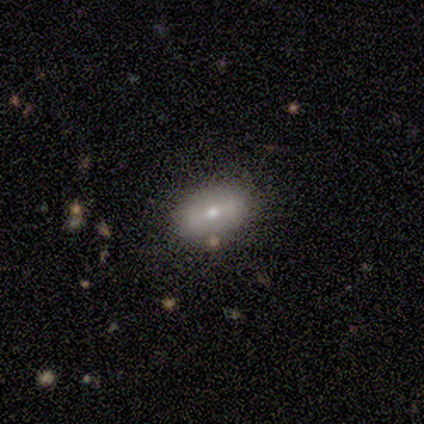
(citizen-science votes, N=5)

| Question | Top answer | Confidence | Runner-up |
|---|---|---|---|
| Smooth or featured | smooth | 80% | featured or disk (20%) |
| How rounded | in between | 100% | — |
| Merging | minor disturbance | 60% | none (40%) |